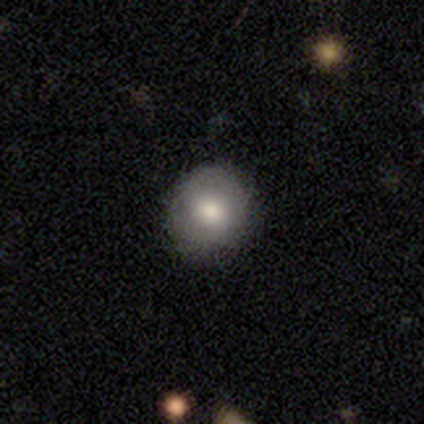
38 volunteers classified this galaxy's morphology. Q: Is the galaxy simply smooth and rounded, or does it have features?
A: smooth — 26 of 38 (68%).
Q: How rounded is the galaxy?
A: round — 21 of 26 (81%).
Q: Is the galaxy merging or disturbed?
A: none — 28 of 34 (82%).